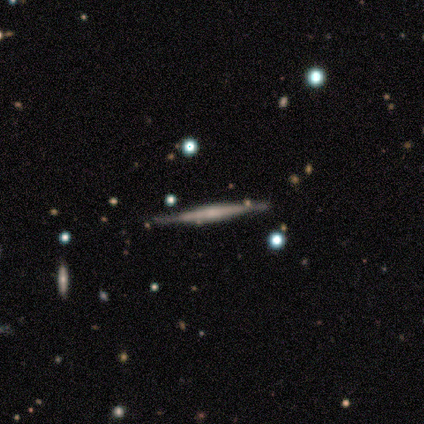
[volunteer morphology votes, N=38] This appears to be a featured or disk galaxy (68%) viewed edge-on (96%) with no central bulge (48%). Merging: none (63%).